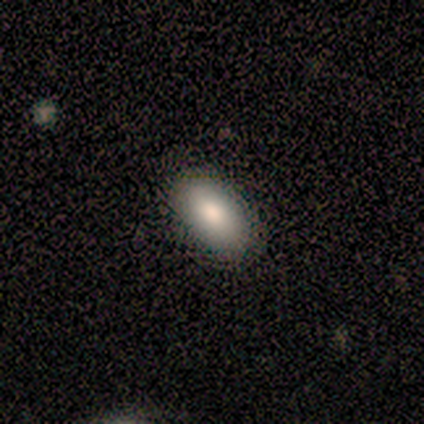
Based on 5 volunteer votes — Morphology: type=smooth (100%); roundness=in between (80%); merging=none (100%).